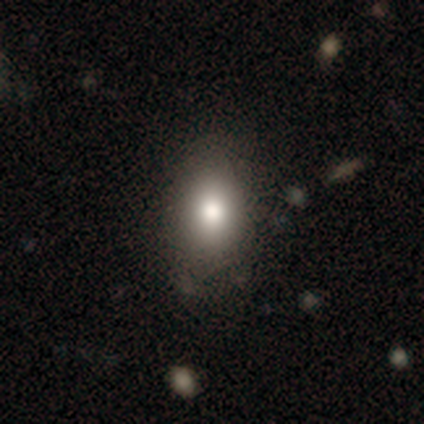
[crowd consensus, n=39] smooth-or-featured: smooth: 74% | featured or disk: 15% | star or artifact: 10%
  how-rounded: in between: 83% | round: 17% | cigar-shaped: 0%
  merging: none: 40% | minor disturbance: 17% | merger: 6% | major disturbance: 3%